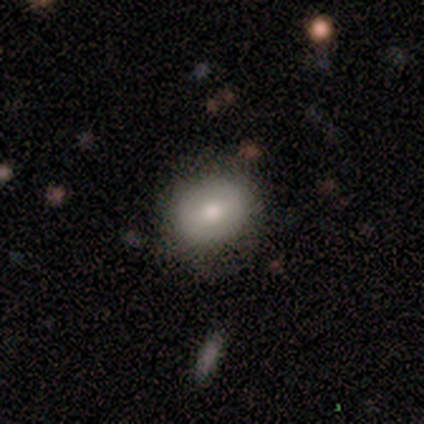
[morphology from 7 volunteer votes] smooth 71%, featured or disk 14%, star or artifact 14%. Down the decision tree: how rounded — in between (60%); merging — none (100%).